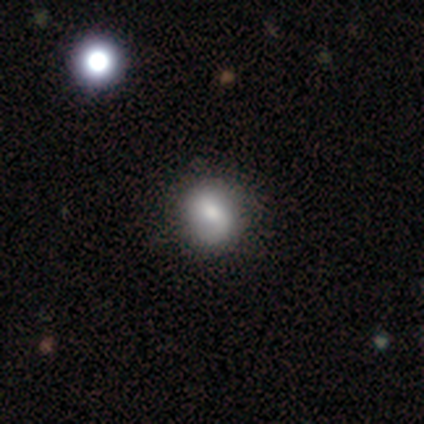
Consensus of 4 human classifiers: Smooth or featured: smooth — 100%
How rounded: in between — 75% (round — 25%)
Merging: none — 50% (tied with minor disturbance — 50%)